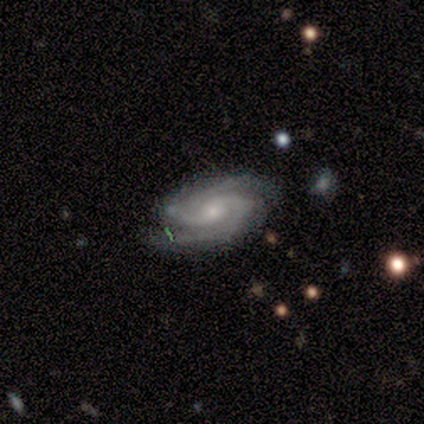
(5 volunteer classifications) A featured or disk galaxy (60%) with a weak bar (67%), 2 (67%) tight (67%) spiral arms (100%) and a small central bulge (100%).

Vote fractions:
- Smooth or featured? featured or disk: 60% / smooth: 20% / star or artifact: 20%
- Edge-on disk? no: 100% / yes: 0%
- Bar? weak: 67% / no: 33% / strong: 0%
- Spiral arms? yes: 100% / no: 0%
- Spiral winding? tight: 67% / loose: 33% / medium: 0%
- Spiral arm count? 2: 67% / 3: 33% / 1: 0% / 4: 0% / more than 4: 0% / can't tell: 0%
- Bulge size? small: 100% / dominant: 0% / large: 0% / moderate: 0% / none: 0%
- Merging? minor disturbance: 75% / none: 25% / major disturbance: 0% / merger: 0%